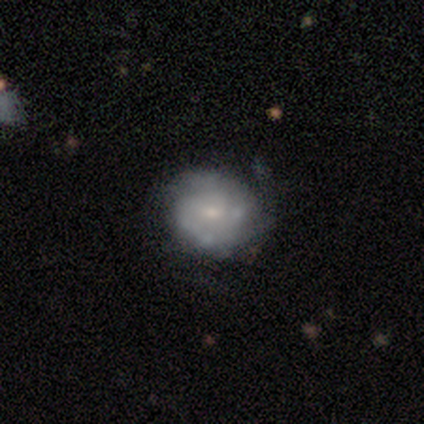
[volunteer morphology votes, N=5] featured or disk 80%, smooth 20%, star or artifact 0%. Down the decision tree: edge-on disk — no (100%); bar — no (75%); spiral arms — yes (75%); spiral arm count — 1 (33%, tied with 2 and can't tell); spiral winding — medium (67%); bulge size — small (100%); merging — none (100%).